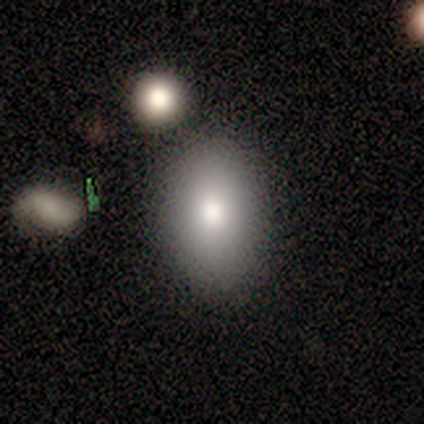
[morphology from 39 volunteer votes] Overall: smooth (72%). How rounded: in between (89%). Merging: none (79%).